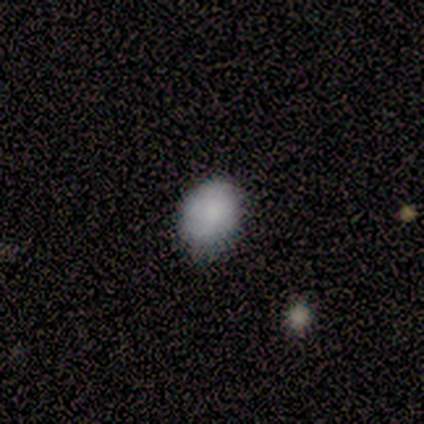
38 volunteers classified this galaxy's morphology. smooth-or-featured: smooth: 87% | star or artifact: 8% | featured or disk: 5%
  how-rounded: in between: 64% | round: 36% | cigar-shaped: 0%
  merging: none: 74% | minor disturbance: 26% | major disturbance: 0% | merger: 0%